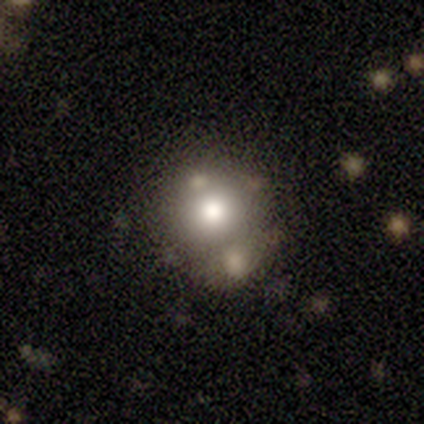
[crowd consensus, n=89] A smooth galaxy with no disk features (61%) that is round (80%).

Vote fractions:
- Smooth or featured? smooth: 61% / featured or disk: 24% / star or artifact: 16%
- How rounded? round: 80% / in between: 19% / cigar-shaped: 2%
- Merging? none: 51% / merger: 31% / minor disturbance: 12% / major disturbance: 7%